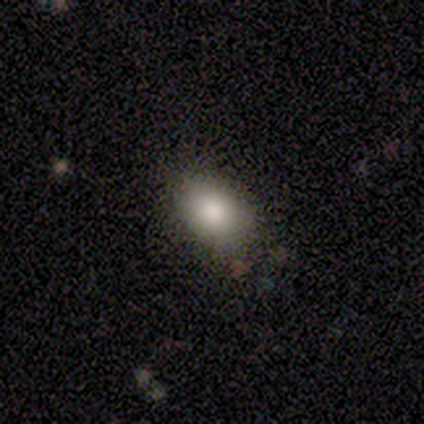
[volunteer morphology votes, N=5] Q: Smooth or featured?
A: smooth (60%); runner-up: star or artifact (40%)
Q: How rounded?
A: in between (100%)
Q: Merging?
A: none (67%); runner-up: minor disturbance (33%)